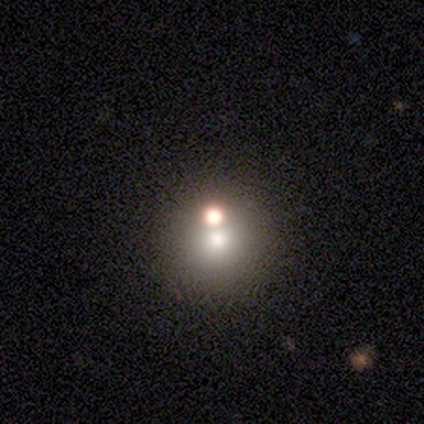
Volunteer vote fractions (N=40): A smooth galaxy with no disk features (60%) that is round (96%).

Vote fractions:
- Smooth or featured? smooth: 60% / star or artifact: 28% / featured or disk: 12%
- How rounded? round: 96% / in between: 4% / cigar-shaped: 0%
- Merging? none: 69% / merger: 31% / minor disturbance: 0% / major disturbance: 0%